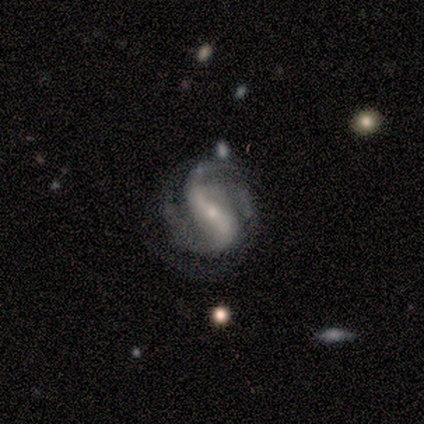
featured or disk 75%, star or artifact 25%, smooth 0%. Down the decision tree: edge-on disk — no (100%); bar — strong (33%, tied with weak and no); spiral arms — yes (100%); spiral arm count — 2 (67%); spiral winding — loose (67%); bulge size — small (100%); merging — none (67%).